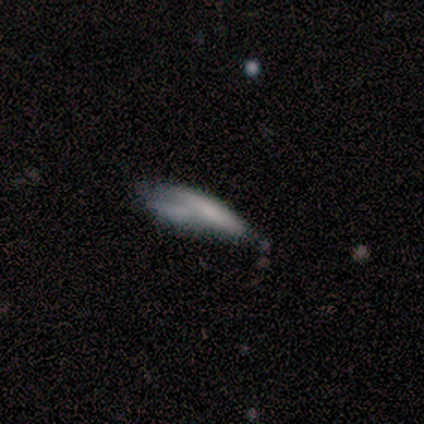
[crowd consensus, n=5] Smooth or featured?
  - featured or disk: 60% *
  - smooth: 40%
  - star or artifact: 0%
Edge-on disk?
  - no: 67% *
  - yes: 33%
Bar?
  - no: 100% *
  - strong: 0%
  - weak: 0%
Spiral arms?
  - no: 100% *
  - yes: 0%
Bulge size?
  - none: 100% *
  - dominant: 0%
  - large: 0%
  - moderate: 0%
  - small: 0%
Merging?
  - none: 40% * (tied)
  - major disturbance: 40% * (tied)
  - merger: 20%
  - minor disturbance: 0%